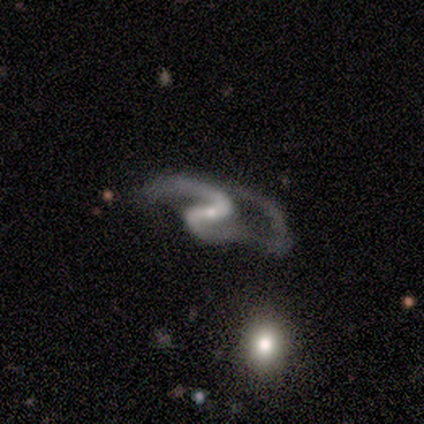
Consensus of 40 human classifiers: Smooth or featured? featured or disk (100%)
Edge-on disk? no (95%)
Bar? strong (42%)
Spiral arms? yes (92%)
Spiral winding? loose (63%)
Spiral arm count? 2 (89%)
Bulge size? small (71%)
Merging? major disturbance (65%)